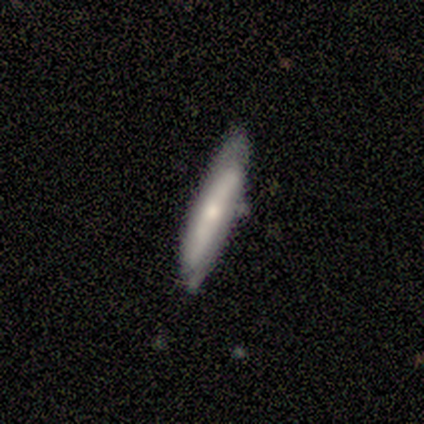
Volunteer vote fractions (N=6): Smooth or featured?
  - featured or disk: 67% *
  - smooth: 33%
  - star or artifact: 0%
Edge-on disk?
  - no: 75% *
  - yes: 25%
Bar?
  - strong: 67% *
  - weak: 33%
  - no: 0%
Spiral arms?
  - no: 67% *
  - yes: 33%
Bulge size?
  - moderate: 67% *
  - small: 33%
  - dominant: 0%
  - large: 0%
  - none: 0%
Merging?
  - none: 50% * (tied)
  - minor disturbance: 50% * (tied)
  - major disturbance: 0%
  - merger: 0%